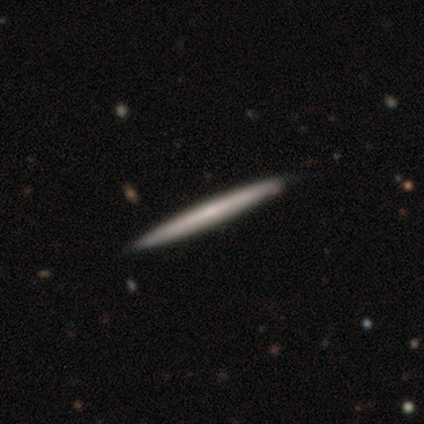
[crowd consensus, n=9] Volunteers were most divided on "smooth or featured": smooth: 56%, featured or disk: 33%, star or artifact: 11%. More confident: how rounded — cigar-shaped (100%); merging — none (100%).